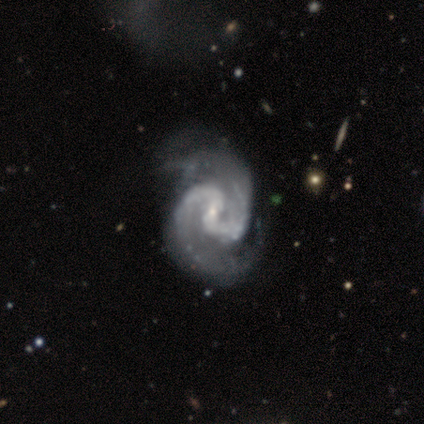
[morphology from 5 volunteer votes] smooth_or_featured: featured or disk (p=0.80) [alt: star or artifact p=0.20]
disk_edge_on: no (p=1.00)
bar: weak (p=0.75) [alt: no p=0.25]
has_spiral_arms: yes (p=1.00)
spiral_winding: medium (p=0.75) [alt: tight p=0.25]
spiral_arm_count: 2 (p=1.00)
bulge_size: small (p=1.00)
merging: minor disturbance (p=1.00)